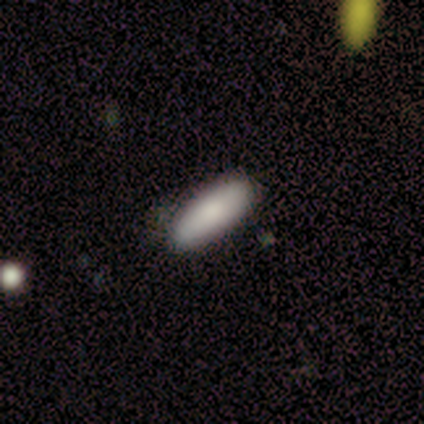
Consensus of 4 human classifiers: A smooth galaxy with no disk features (100%) that is in between round and cigar-shaped (100%). Merging: none (100%).